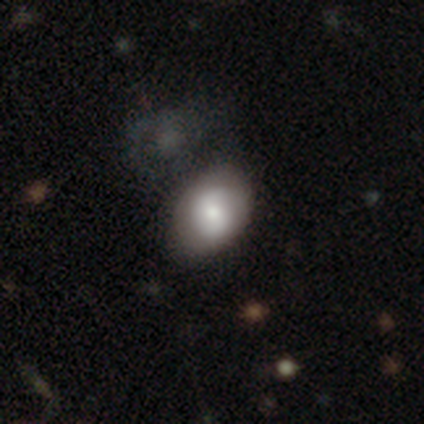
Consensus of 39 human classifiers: Smooth or featured?
  - smooth: 72% *
  - featured or disk: 26%
  - star or artifact: 3%
How rounded?
  - in between: 79% *
  - round: 21%
  - cigar-shaped: 0%
Merging?
  - none: 53% *
  - minor disturbance: 26%
  - major disturbance: 16%
  - merger: 5%